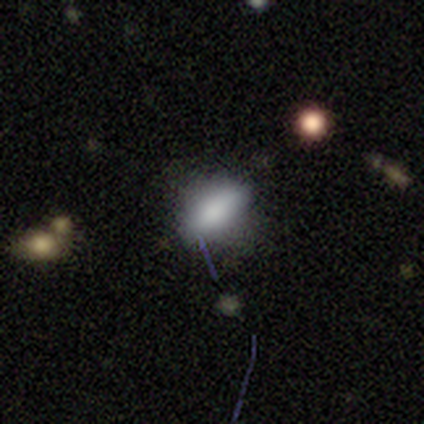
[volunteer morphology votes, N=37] This appears to be a smooth galaxy with no disk features (84%) that is in between round and cigar-shaped (71%). Merging: none (65%).